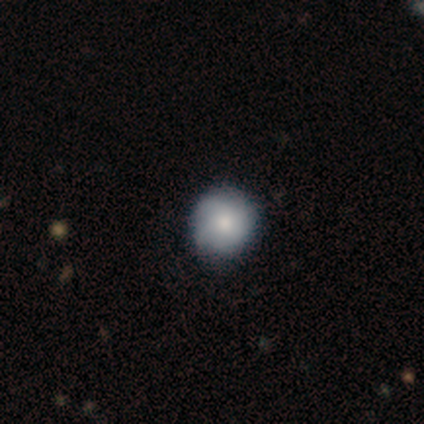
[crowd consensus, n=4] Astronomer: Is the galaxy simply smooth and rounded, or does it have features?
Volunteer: smooth — 75%.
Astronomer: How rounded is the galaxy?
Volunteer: round — 100%.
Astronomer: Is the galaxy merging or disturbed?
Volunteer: none — 75%.